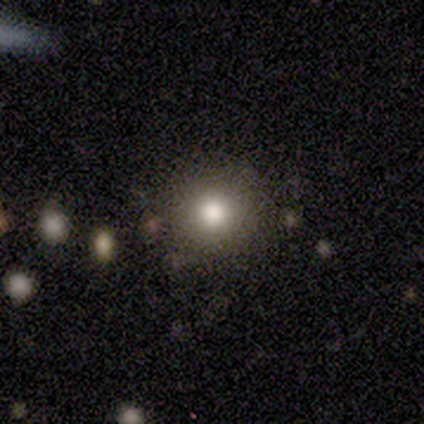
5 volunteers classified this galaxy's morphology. Q: Smooth or featured?
A: smooth (40%); tied with: star or artifact (40%)
Q: How rounded?
A: round (100%)
Q: Merging?
A: none (100%)